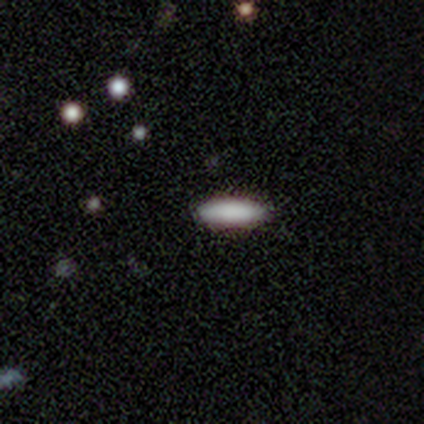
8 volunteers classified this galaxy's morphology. smooth 100%, featured or disk 0%, star or artifact 0%. Down the decision tree: how rounded — cigar-shaped (75%); merging — none (100%).